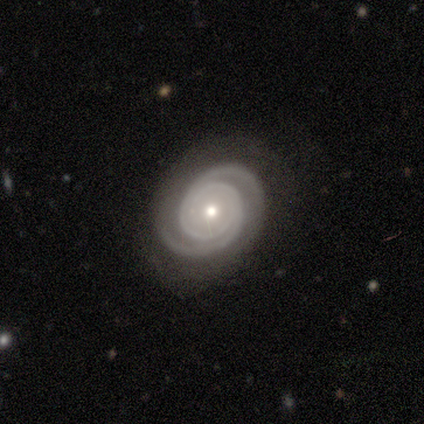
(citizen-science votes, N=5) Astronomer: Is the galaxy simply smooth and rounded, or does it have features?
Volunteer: featured or disk — 100%.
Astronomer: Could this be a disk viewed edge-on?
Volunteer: no — 80%.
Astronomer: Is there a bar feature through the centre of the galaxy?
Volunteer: no — 100%.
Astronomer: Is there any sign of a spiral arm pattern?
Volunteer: yes — 100%.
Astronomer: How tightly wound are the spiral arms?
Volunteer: tight — 50%, tied with medium at 50%.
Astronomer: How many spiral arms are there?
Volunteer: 2 — 100%.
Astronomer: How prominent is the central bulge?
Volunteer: moderate — 50%, tied with small at 50%.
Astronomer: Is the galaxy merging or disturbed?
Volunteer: none — 80%.